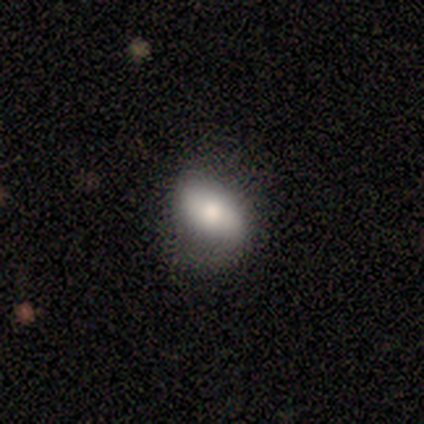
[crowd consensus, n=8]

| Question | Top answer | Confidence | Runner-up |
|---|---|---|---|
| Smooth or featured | smooth | 62% | featured or disk (38%) |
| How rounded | in between | 80% | cigar-shaped (20%) |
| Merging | none | 75% | minor disturbance (25%) |